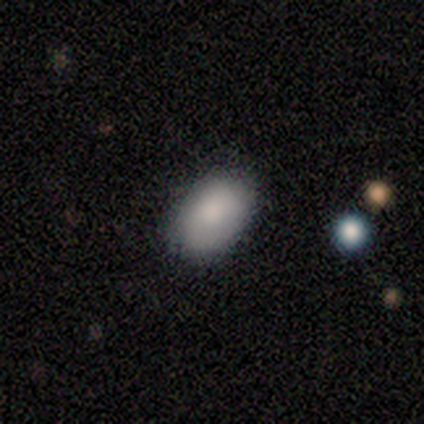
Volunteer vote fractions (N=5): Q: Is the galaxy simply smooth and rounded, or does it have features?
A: smooth — 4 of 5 (80%).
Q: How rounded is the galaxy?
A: in between — 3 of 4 (75%).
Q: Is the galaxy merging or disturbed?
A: none — 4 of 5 (80%).